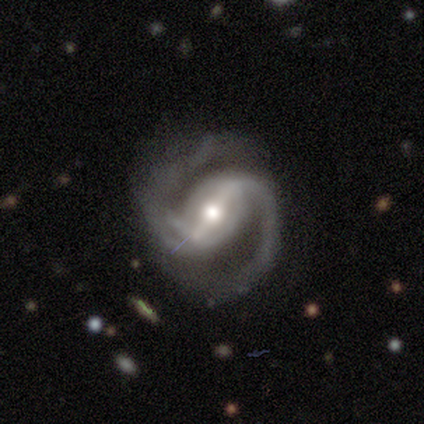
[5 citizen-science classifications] smooth-or-featured: featured or disk: 100% | smooth: 0% | star or artifact: 0%
  disk-edge-on: no: 100% | yes: 0%
    bar: strong: 60% | weak: 20% | no: 20%
    has-spiral-arms: yes: 100% | no: 0%
      spiral-winding: medium: 80% | tight: 20% | loose: 0%
      spiral-arm-count: 2: 100% | 1: 0% | 3: 0% | 4: 0% | more than 4: 0% | can't tell: 0%
    bulge-size: moderate: 80% | small: 20% | dominant: 0% | large: 0% | none: 0%
  merging: none: 100% | minor disturbance: 0% | major disturbance: 0% | merger: 0%